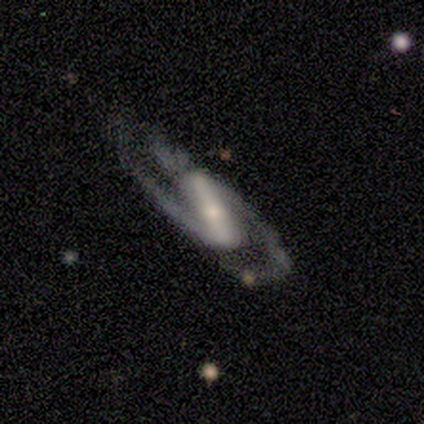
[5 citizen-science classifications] Smooth or featured? 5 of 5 (100%) said featured or disk. Edge-on disk? 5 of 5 (100%) said no. Bar? 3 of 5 (60%) said strong. Spiral arms? 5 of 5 (100%) said yes. Spiral winding? 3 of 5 (60%) said medium. Spiral arm count? 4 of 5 (80%) said 2. Bulge size? 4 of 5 (80%) said moderate. Merging? 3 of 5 (60%) said none.